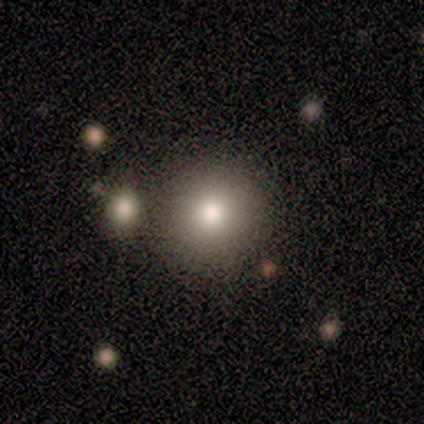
Smooth or featured: smooth — 100%
How rounded: round — 100%
Merging: none — 80% (merger — 20%)